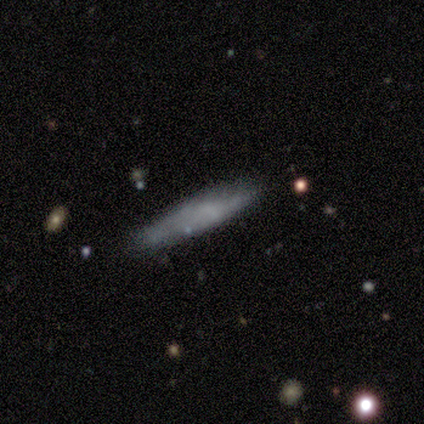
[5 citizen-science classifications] Morphology: type=smooth (80%); roundness=cigar-shaped (100%); merging=none (80%).